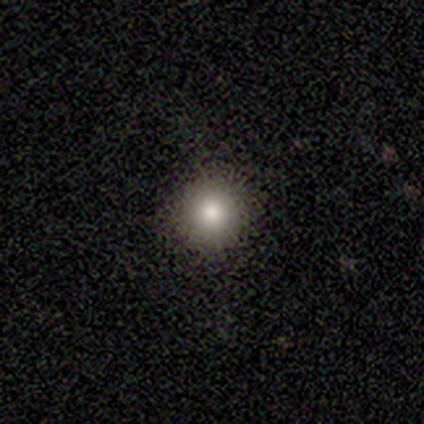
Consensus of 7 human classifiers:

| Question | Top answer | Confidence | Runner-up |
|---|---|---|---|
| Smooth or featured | smooth | 57% | star or artifact (43%) |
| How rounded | round | 100% | — |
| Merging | none | 100% | — |